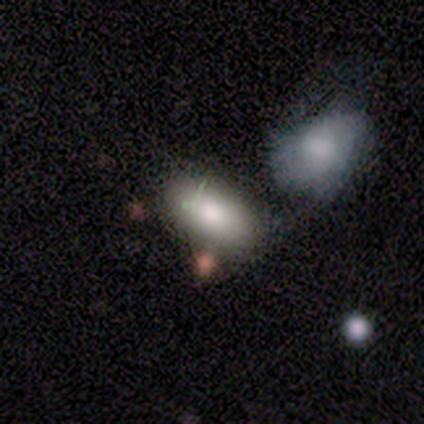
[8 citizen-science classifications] This appears to be a smooth galaxy with no disk features (100%) that is in between round and cigar-shaped (100%). Merging: none (38%, tied with minor disturbance).